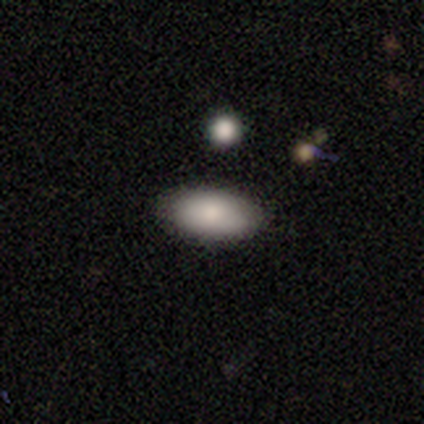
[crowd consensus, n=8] This is clearly a smooth galaxy (88%). How rounded: clearly in between (100%). Merging: clearly none (88%).